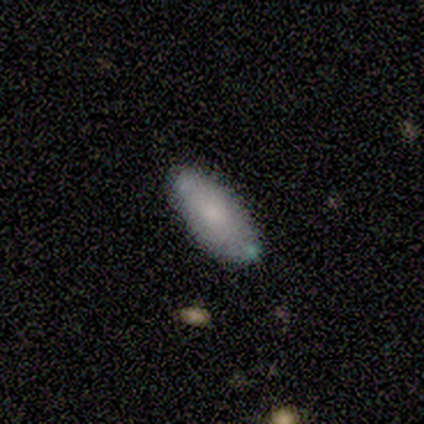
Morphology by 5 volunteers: Smooth or featured? 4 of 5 (80%) said smooth. How rounded? 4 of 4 (100%) said in between. Merging? 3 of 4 (75%) said none.